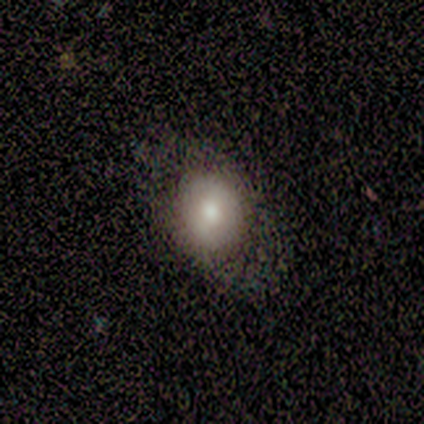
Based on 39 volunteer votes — smooth_or_featured: smooth (p=0.67) [alt: featured or disk p=0.28]
how_rounded: in between (p=0.58) [alt: round p=0.42]
merging: none (p=0.65) [alt: minor disturbance p=0.05]